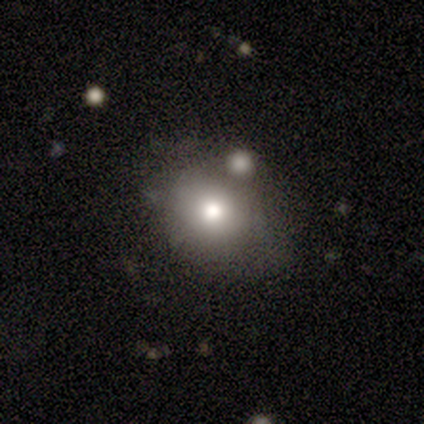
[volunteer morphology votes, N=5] Smooth or featured? 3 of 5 (60%) said smooth. How rounded? 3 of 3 (100%) said in between. Merging? 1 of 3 (33%, tied with minor disturbance and merger) said none.